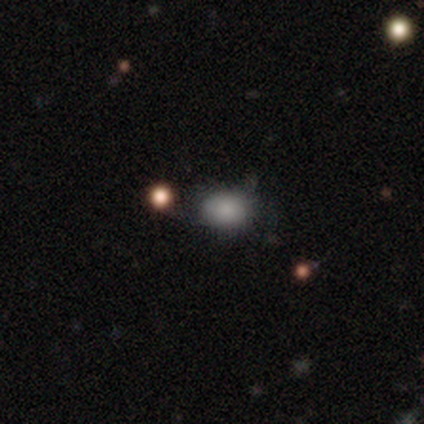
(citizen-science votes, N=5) This is clearly a smooth galaxy (80%). How rounded: possibly round (50%, tied with in between). Merging: clearly none (100%).